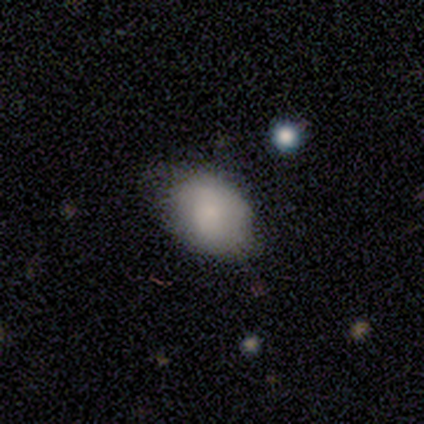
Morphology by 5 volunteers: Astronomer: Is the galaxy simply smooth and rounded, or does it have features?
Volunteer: smooth — 100%.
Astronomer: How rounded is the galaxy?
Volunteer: in between — 60% (runner-up: round, 40%).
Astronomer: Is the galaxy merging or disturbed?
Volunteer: none — 40%, tied with minor disturbance at 40%.